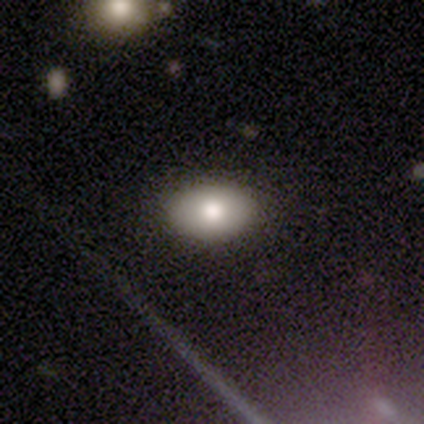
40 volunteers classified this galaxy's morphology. smooth-or-featured: smooth: 65% | featured or disk: 25% | star or artifact: 10%
  how-rounded: in between: 81% | round: 19% | cigar-shaped: 0%
  merging: none: 86% | minor disturbance: 11% | major disturbance: 3% | merger: 0%